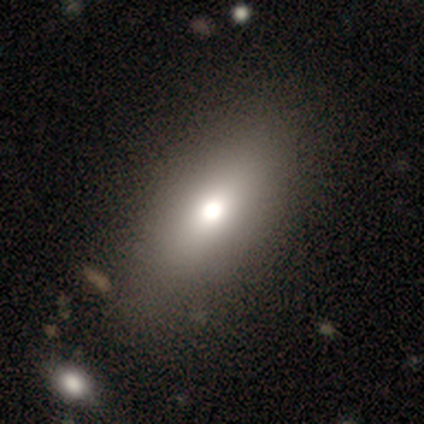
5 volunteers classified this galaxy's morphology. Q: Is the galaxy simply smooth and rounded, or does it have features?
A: smooth — 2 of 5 (40%, tied with featured or disk).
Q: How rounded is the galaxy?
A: in between — 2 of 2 (100%).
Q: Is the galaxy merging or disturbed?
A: none — 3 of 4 (75%).